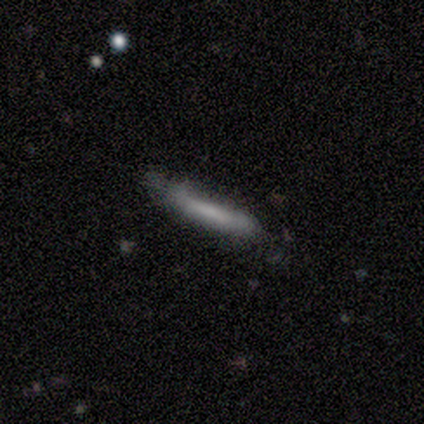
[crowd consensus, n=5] A smooth galaxy with no disk features (80%) that is cigar-shaped (75%). Merging: none (75%).